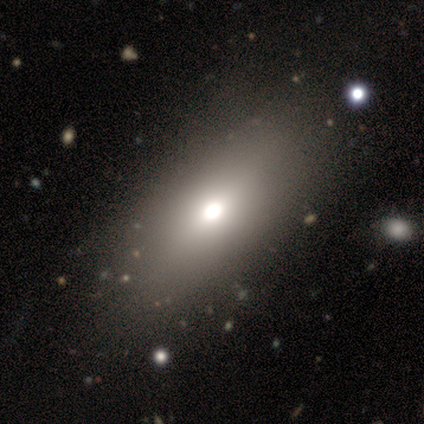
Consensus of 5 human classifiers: Q: Smooth or featured?
A: smooth (60%); runner-up: featured or disk (40%)
Q: How rounded?
A: in between (67%); runner-up: cigar-shaped (33%)
Q: Merging?
A: none (80%); runner-up: minor disturbance (20%)